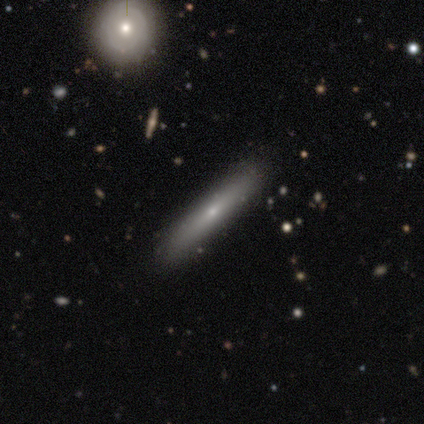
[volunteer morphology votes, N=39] Volunteers were most divided on "smooth or featured": smooth: 56%, featured or disk: 41%, star or artifact: 3%. More confident: how rounded — cigar-shaped (95%); merging — none (84%).